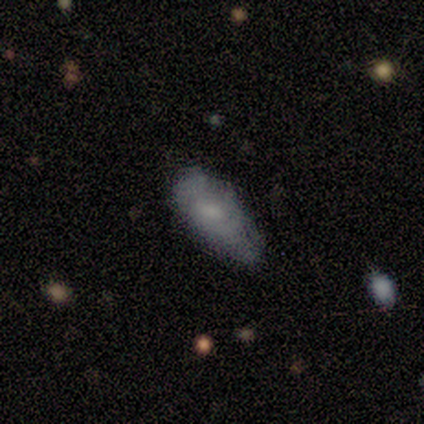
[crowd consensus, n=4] Smooth or featured?
  - smooth: 75% *
  - featured or disk: 25%
  - star or artifact: 0%
How rounded?
  - in between: 100% *
  - round: 0%
  - cigar-shaped: 0%
Merging?
  - minor disturbance: 75% *
  - none: 25%
  - major disturbance: 0%
  - merger: 0%